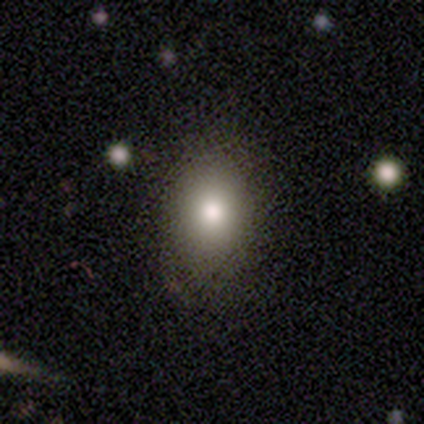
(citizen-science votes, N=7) Morphology: type=smooth (57%); roundness=round (50%, tied with in between); merging=none (60%).